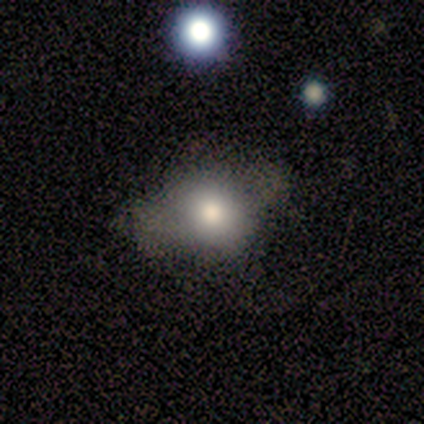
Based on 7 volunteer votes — smooth-or-featured: smooth: 57% | featured or disk: 43% | star or artifact: 0%
  how-rounded: in between: 75% | cigar-shaped: 25% | round: 0%
  merging: major disturbance: 43% | none: 29% | minor disturbance: 29% | merger: 0%